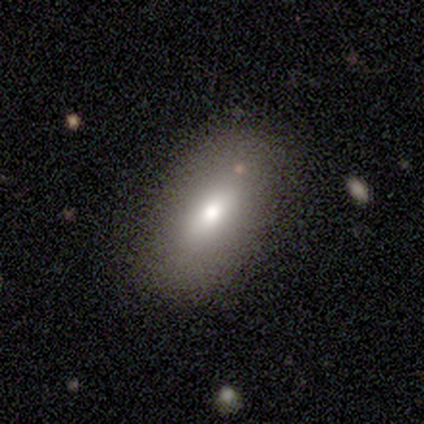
Volunteers were most divided on "smooth or featured": smooth: 60%, featured or disk: 20%, star or artifact: 20%. More confident: how rounded — in between (100%); merging — none (100%).